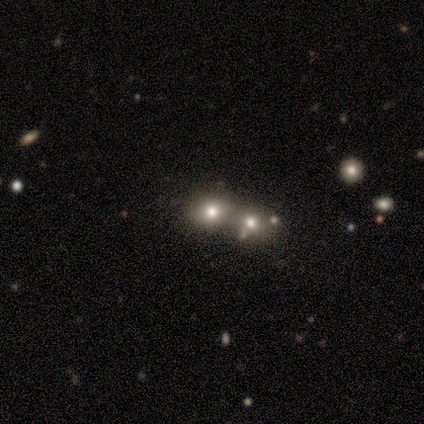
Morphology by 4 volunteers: Smooth or featured?
  - smooth: 75% *
  - featured or disk: 25%
  - star or artifact: 0%
How rounded?
  - round: 67% *
  - in between: 33%
  - cigar-shaped: 0%
Merging?
  - merger: 75% *
  - none: 25%
  - minor disturbance: 0%
  - major disturbance: 0%